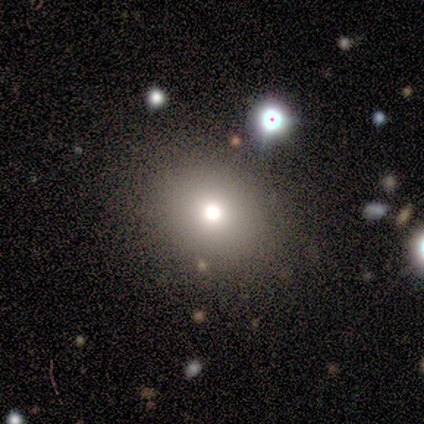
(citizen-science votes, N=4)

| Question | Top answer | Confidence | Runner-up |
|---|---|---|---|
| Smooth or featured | smooth | 50% | featured or disk (25%) |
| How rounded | round | 100% | — |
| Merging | none | 67% | minor disturbance (33%) |